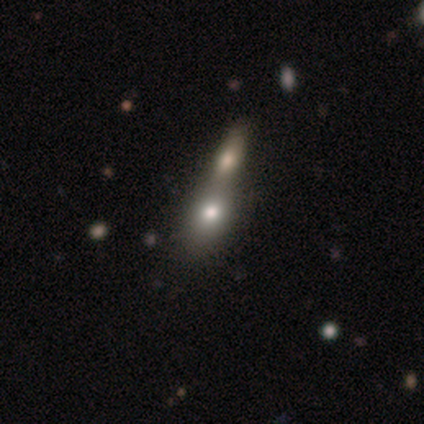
Smooth or featured: smooth — 80% (star or artifact — 20%)
How rounded: round — 50% (in between — 25%)
Merging: merger — 75% (none — 25%)